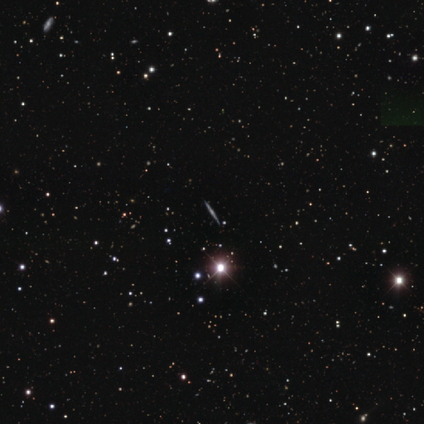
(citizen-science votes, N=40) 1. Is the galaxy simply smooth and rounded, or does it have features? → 55% featured or disk, 45% star or artifact, 0% smooth.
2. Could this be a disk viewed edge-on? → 95% yes, 5% no.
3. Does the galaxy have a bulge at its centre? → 81% rounded, 10% boxy, 10% none.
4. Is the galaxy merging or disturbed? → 95% none, 5% minor disturbance, 0% major disturbance, 0% merger.